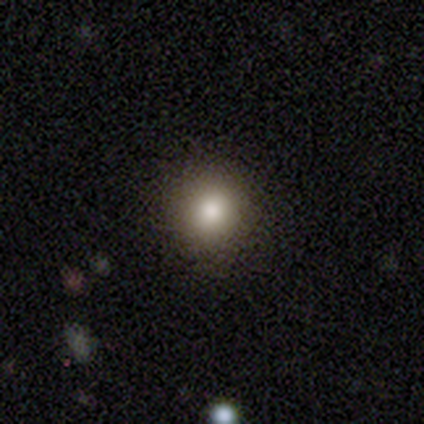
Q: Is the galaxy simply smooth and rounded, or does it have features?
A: smooth — 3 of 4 (75%).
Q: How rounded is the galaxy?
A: round — 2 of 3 (67%).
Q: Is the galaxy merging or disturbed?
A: none — 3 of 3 (100%).